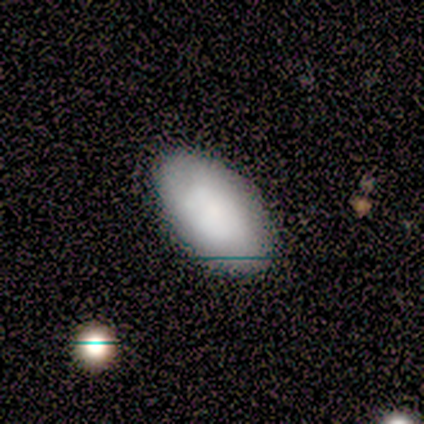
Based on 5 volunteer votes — Smooth or featured? smooth (80%)
How rounded? in between (100%)
Merging? none (80%)